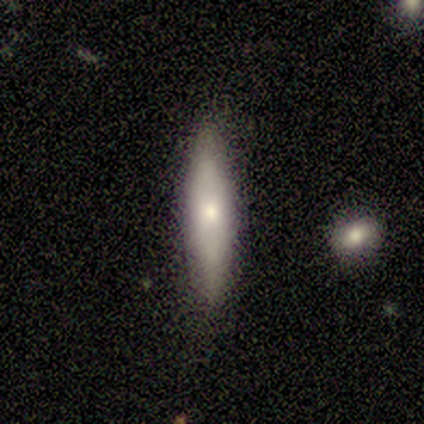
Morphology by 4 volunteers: Smooth or featured?
  - smooth: 75% *
  - featured or disk: 25%
  - star or artifact: 0%
How rounded?
  - cigar-shaped: 100% *
  - round: 0%
  - in between: 0%
Merging?
  - none: 100% *
  - minor disturbance: 0%
  - major disturbance: 0%
  - merger: 0%